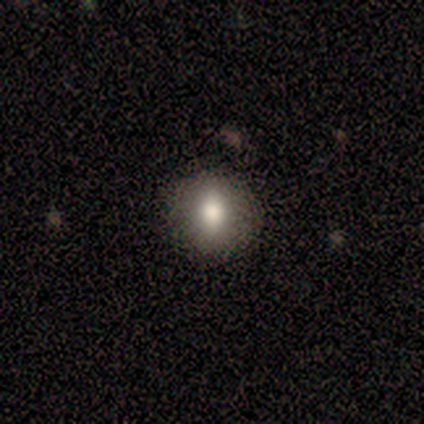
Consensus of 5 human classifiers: Volunteers were most divided on "smooth or featured": smooth: 80%, featured or disk: 20%, star or artifact: 0%. More confident: how rounded — round (100%); merging — none (80%).